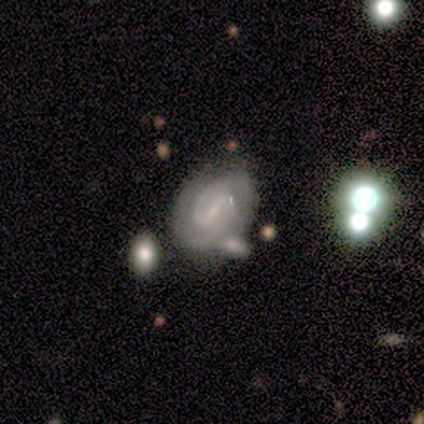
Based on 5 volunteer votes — A featured or disk galaxy (100%) with a weak bar (80%), 2 (100%) medium (60%) spiral arms (100%) and a small central bulge (80%).

Vote fractions:
- Smooth or featured? featured or disk: 100% / smooth: 0% / star or artifact: 0%
- Edge-on disk? no: 100% / yes: 0%
- Bar? weak: 80% / strong: 20% / no: 0%
- Spiral arms? yes: 100% / no: 0%
- Spiral winding? medium: 60% / tight: 40% / loose: 0%
- Spiral arm count? 2: 100% / 1: 0% / 3: 0% / 4: 0% / more than 4: 0% / can't tell: 0%
- Bulge size? small: 80% / none: 20% / dominant: 0% / large: 0% / moderate: 0%
- Merging? none: 60% / minor disturbance: 40% / major disturbance: 0% / merger: 0%